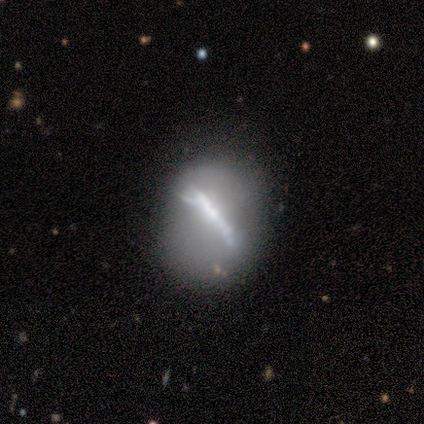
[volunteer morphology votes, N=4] smooth-or-featured: smooth: 50% | featured or disk: 25% | star or artifact: 25%
  how-rounded: round: 100% | in between: 0% | cigar-shaped: 0%
  merging: none: 67% | minor disturbance: 33% | major disturbance: 0% | merger: 0%